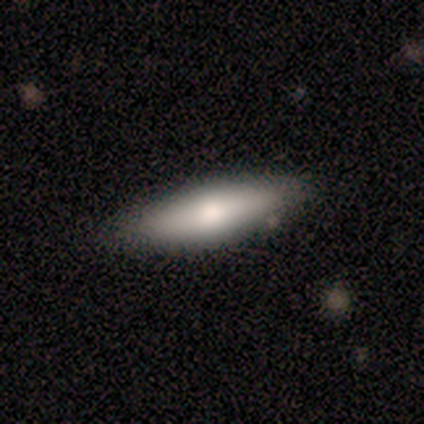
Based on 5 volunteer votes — This appears to be a smooth galaxy with no disk features (60%) that is cigar-shaped (67%). Merging: none (60%).